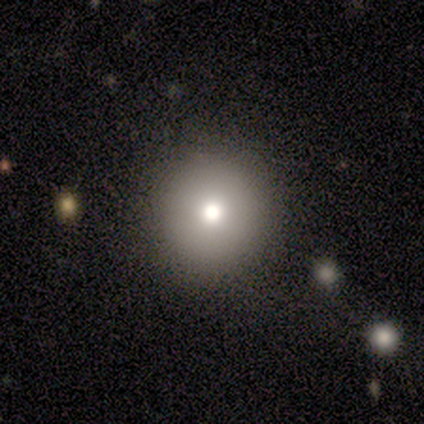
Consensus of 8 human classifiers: A smooth galaxy with no disk features (75%) that is round (83%).

Vote fractions:
- Smooth or featured? smooth: 75% / featured or disk: 12% / star or artifact: 12%
- How rounded? round: 83% / in between: 17% / cigar-shaped: 0%
- Merging? none: 71% / minor disturbance: 29% / major disturbance: 0% / merger: 0%